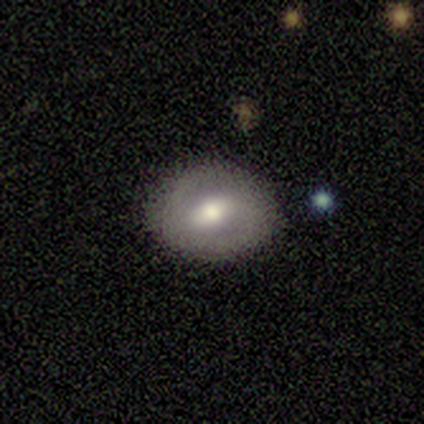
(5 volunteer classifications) Smooth or featured? featured or disk (80%)
Edge-on disk? no (100%)
Bar? weak (50%)
Spiral arms? yes (75%)
Spiral winding? tight (33%, tied with medium and loose)
Spiral arm count? 2 (100%)
Bulge size? moderate (75%)
Merging? none (80%)